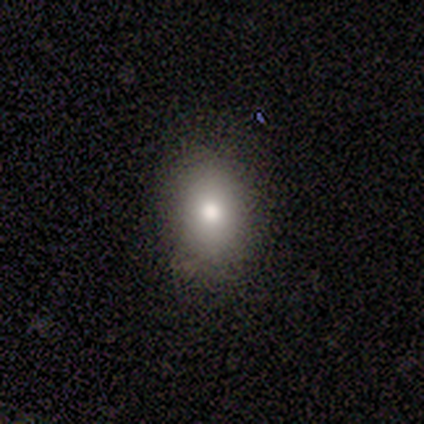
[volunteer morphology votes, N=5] smooth 100%, featured or disk 0%, star or artifact 0%. Down the decision tree: how rounded — in between (60%); merging — none (100%).